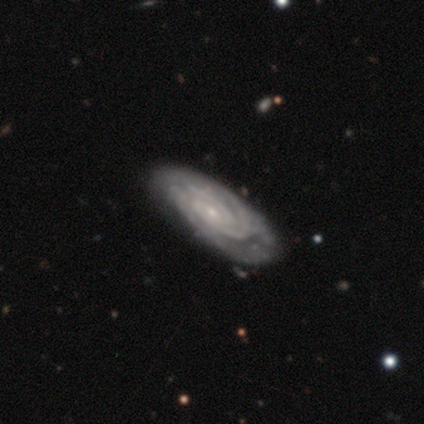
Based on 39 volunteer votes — Smooth or featured?
  - featured or disk: 90% *
  - smooth: 8%
  - star or artifact: 3%
Edge-on disk?
  - no: 94% *
  - yes: 6%
Bar?
  - no: 61% *
  - weak: 33%
  - strong: 6%
Spiral arms?
  - yes: 94% *
  - no: 6%
Spiral winding?
  - tight: 81% *
  - medium: 16%
  - loose: 3%
Spiral arm count?
  - can't tell: 45% *
  - 2: 26%
  - 3: 23%
  - 1: 3%
  - more than 4: 3%
  - 4: 0%
Bulge size?
  - small: 76% *
  - moderate: 18%
  - large: 3%
  - none: 3%
  - dominant: 0%
Merging?
  - none: 58% *
  - minor disturbance: 8%
  - major disturbance: 8%
  - merger: 5%